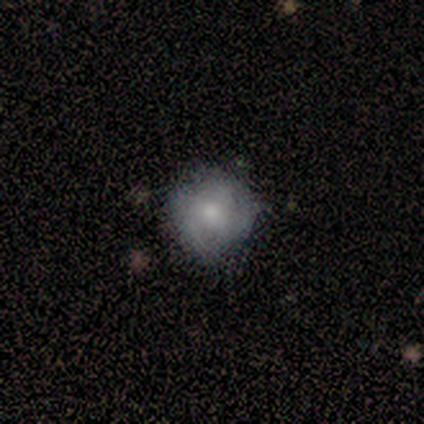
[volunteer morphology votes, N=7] smooth_or_featured: featured or disk (p=0.57) [alt: smooth p=0.43]
disk_edge_on: no (p=1.00)
bar: no (p=1.00)
has_spiral_arms: yes (p=0.50) [tied with: no p=0.50]
spiral_winding: tight (p=0.50) [tied with: medium p=0.50]
spiral_arm_count: 2 (p=0.50) [tied with: can't tell p=0.50]
bulge_size: none (p=0.50) [alt: moderate p=0.25]
merging: none (p=0.57) [alt: minor disturbance p=0.43]